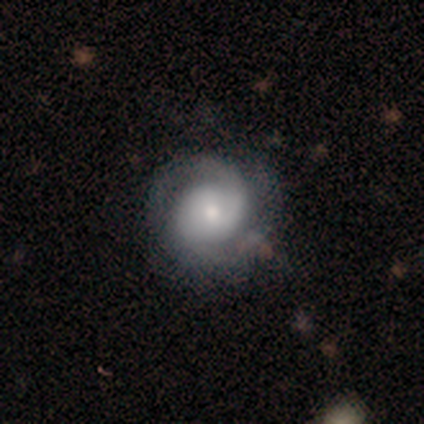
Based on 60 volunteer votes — Smooth or featured? 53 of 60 (88%) said featured or disk. Edge-on disk? 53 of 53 (100%) said no. Bar? 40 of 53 (75%) said no. Spiral arms? 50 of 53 (94%) said yes. Spiral winding? 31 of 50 (62%) said tight. Spiral arm count? 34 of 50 (68%) said 2. Bulge size? 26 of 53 (49%) said small. Merging? 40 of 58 (69%) said none.